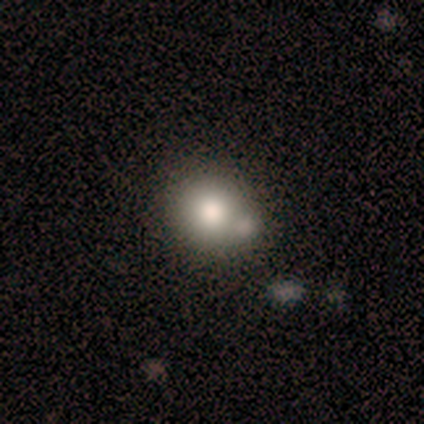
smooth 100%, featured or disk 0%, star or artifact 0%. Down the decision tree: how rounded — round (80%); merging — none (80%).